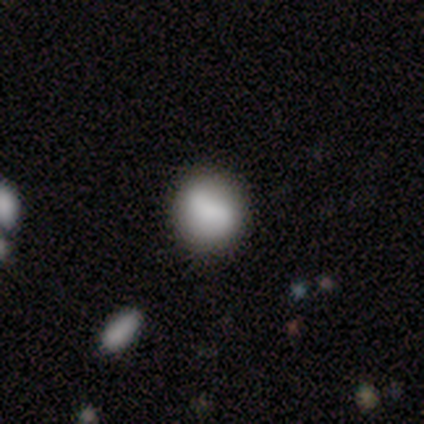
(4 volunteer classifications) Volunteers were most divided on "smooth or featured": smooth: 75%, star or artifact: 25%, featured or disk: 0%. More confident: how rounded — round (100%); merging — none (100%).